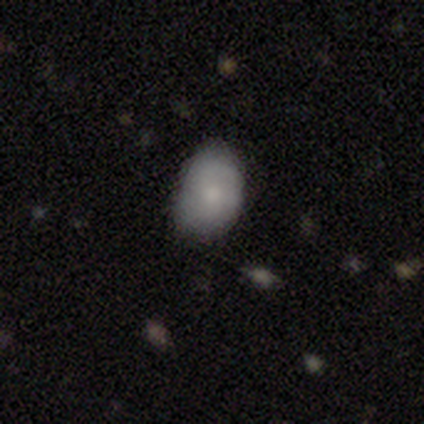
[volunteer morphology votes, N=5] This appears to be a smooth galaxy with no disk features (100%) that is in between round and cigar-shaped (60%). Merging: none (60%).